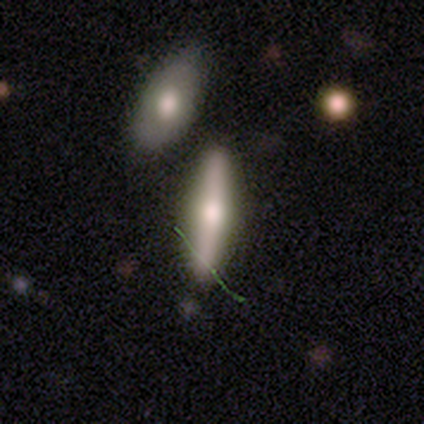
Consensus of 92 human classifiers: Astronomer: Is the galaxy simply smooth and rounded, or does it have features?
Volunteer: smooth — 48% (runner-up: featured or disk, 38%).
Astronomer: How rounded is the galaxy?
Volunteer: cigar-shaped — 77%.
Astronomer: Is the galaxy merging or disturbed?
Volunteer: none — 67%.